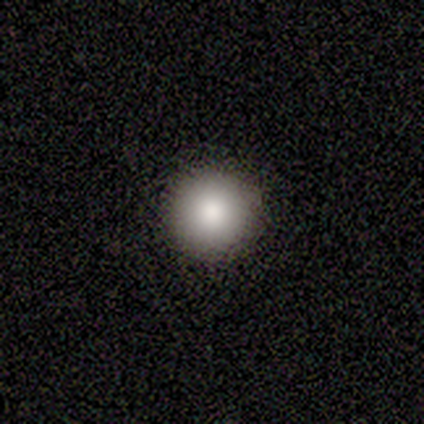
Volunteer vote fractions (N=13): This is clearly a smooth galaxy (100%). How rounded: clearly round (100%). Merging: clearly none (100%).